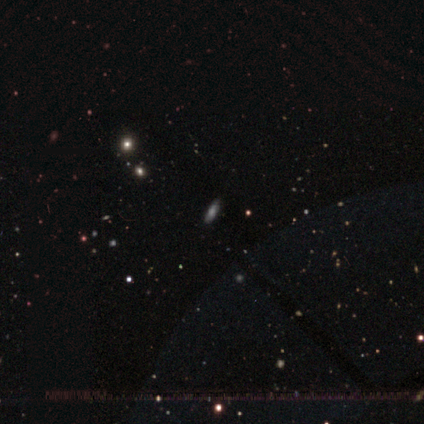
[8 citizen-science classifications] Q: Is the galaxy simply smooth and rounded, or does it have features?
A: smooth — 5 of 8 (62%).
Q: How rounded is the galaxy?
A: cigar-shaped — 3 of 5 (60%).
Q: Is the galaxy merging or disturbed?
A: none — 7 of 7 (100%).